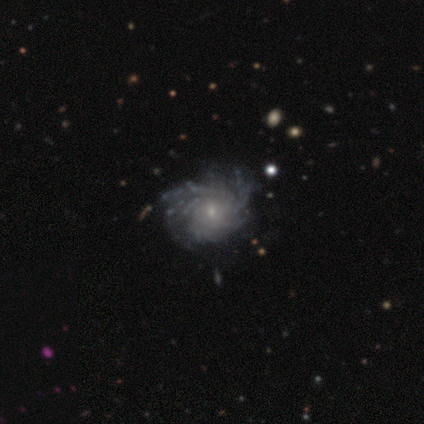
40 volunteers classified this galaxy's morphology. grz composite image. It shows a featured or disk galaxy (92%) with no bar (89%), more than 4 (56%) tight (56%) spiral arms (100%) and a small central bulge (69%). Merging: none (50%).